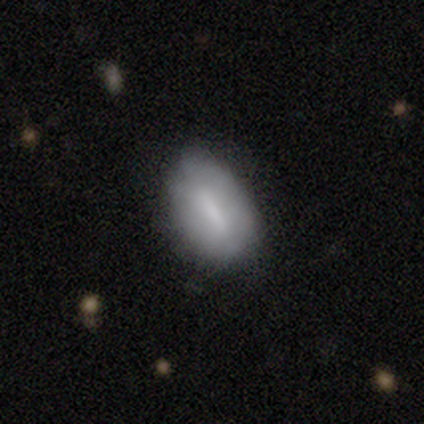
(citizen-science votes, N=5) Smooth or featured? smooth (40%, tied with featured or disk)
How rounded? in between (100%)
Merging? none (75%)